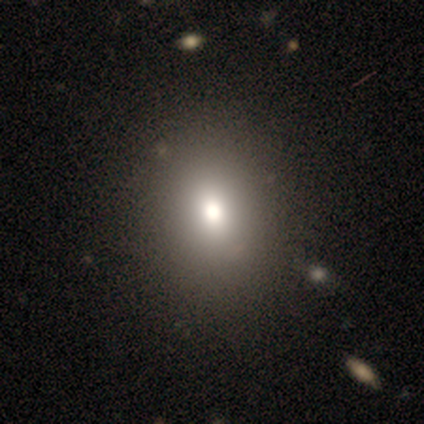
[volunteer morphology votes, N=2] Smooth or featured? smooth (100%)
How rounded? in between (100%)
Merging? none (100%)